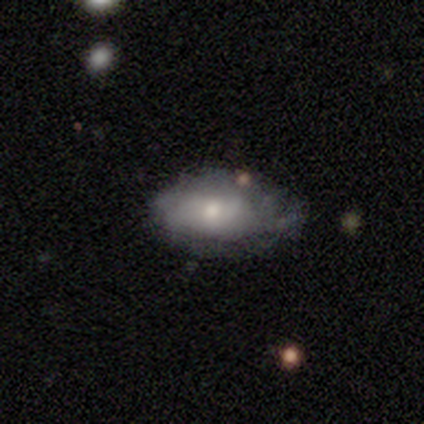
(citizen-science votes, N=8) Smooth or featured: smooth — 62% (featured or disk — 38%)
How rounded: in between — 100%
Merging: none — 50% (tied with minor disturbance — 50%)